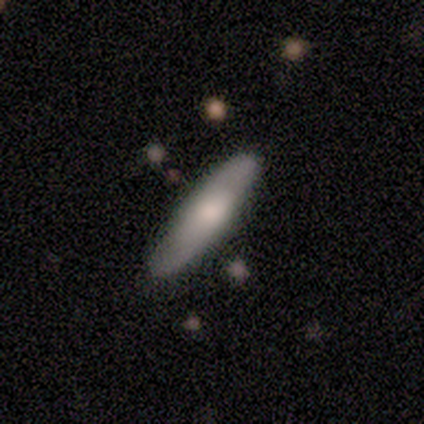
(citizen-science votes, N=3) Overall: smooth (100%). How rounded: cigar-shaped (67%; in between 33%). Merging: none (100%).